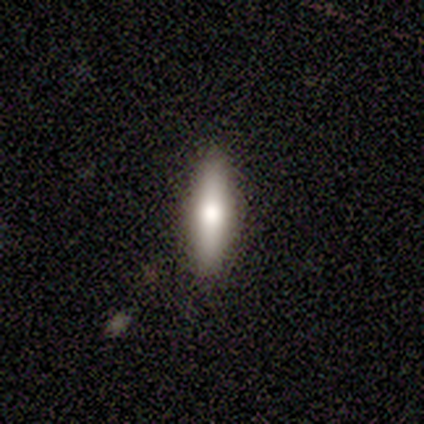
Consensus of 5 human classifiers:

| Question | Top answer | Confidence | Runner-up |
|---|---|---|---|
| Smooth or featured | smooth | 60% | featured or disk (40%) |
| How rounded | cigar-shaped | 67% | in between (33%) |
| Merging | none | 100% | — |